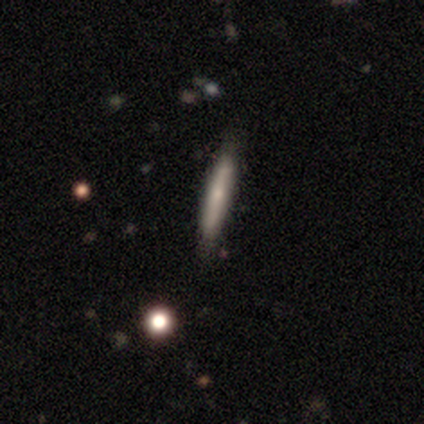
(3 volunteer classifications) Morphology: type=featured or disk (67%); edge-on=yes (100%); edge-on bulge=rounded (100%); merging=none (67%).